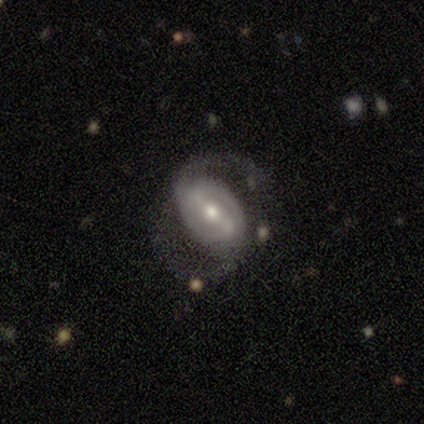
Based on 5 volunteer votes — smooth-or-featured: featured or disk: 100% | smooth: 0% | star or artifact: 0%
  disk-edge-on: no: 100% | yes: 0%
    bar: weak: 60% | strong: 40% | no: 0%
    has-spiral-arms: yes: 100% | no: 0%
      spiral-winding: medium: 80% | loose: 20% | tight: 0%
      spiral-arm-count: 2: 100% | 1: 0% | 3: 0% | 4: 0% | more than 4: 0% | can't tell: 0%
    bulge-size: small: 60% | moderate: 40% | dominant: 0% | large: 0% | none: 0%
  merging: none: 80% | minor disturbance: 20% | major disturbance: 0% | merger: 0%